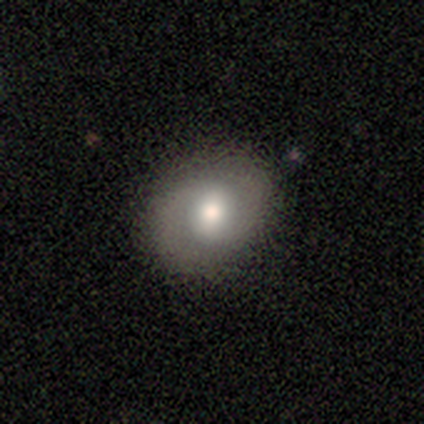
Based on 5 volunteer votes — Volunteers were most divided on "bar": no: 50%, strong: 25%, weak: 25%. More confident: edge-on disk — no (100%); merging — none (100%); smooth or featured — featured or disk (80%); spiral arms — yes (75%); bulge size — moderate (75%); spiral winding — medium (67%); spiral arm count — 2 (67%).